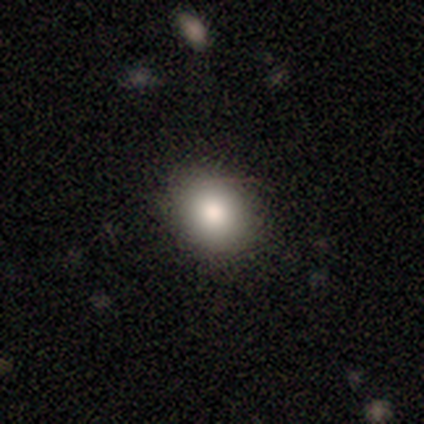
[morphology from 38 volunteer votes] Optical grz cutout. It shows a smooth galaxy with no disk features (76%) that is round (66%). Merging: none (97%).